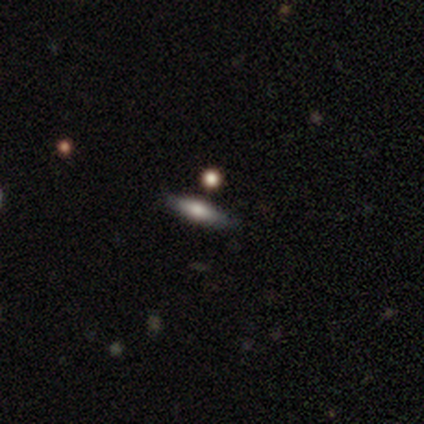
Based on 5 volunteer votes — smooth-or-featured: featured or disk: 60% | smooth: 40% | star or artifact: 0%
  disk-edge-on: yes: 100% | no: 0%
    edge-on-bulge: rounded: 100% | boxy: 0% | none: 0%
  merging: none: 80% | minor disturbance: 20% | major disturbance: 0% | merger: 0%